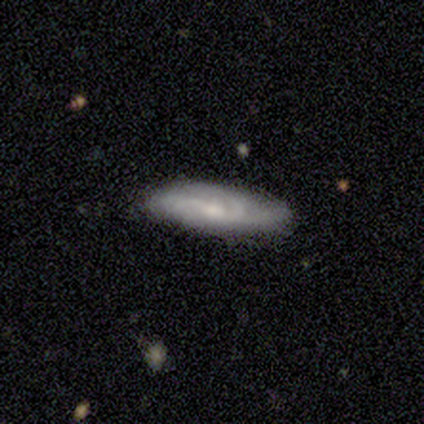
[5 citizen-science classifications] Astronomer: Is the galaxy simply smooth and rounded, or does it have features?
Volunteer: smooth — 80%.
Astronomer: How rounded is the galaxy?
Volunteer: in between — 50%, tied with cigar-shaped at 50%.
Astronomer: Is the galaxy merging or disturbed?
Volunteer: none — 100%.